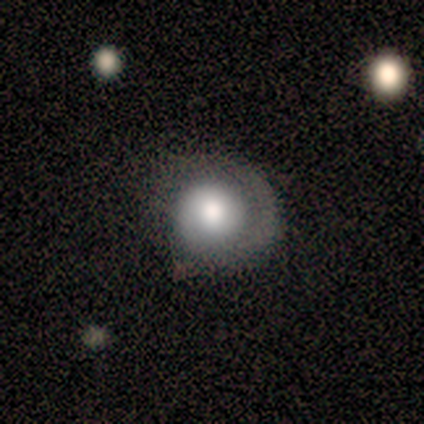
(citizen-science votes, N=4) A smooth galaxy with no disk features (50%, tied with featured or disk) that is round (100%). Merging: none (50%).